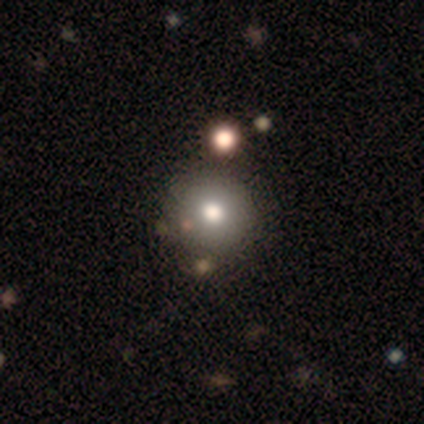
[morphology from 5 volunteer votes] This appears to be a smooth galaxy with no disk features (60%) that is round (100%). Merging: none (100%).